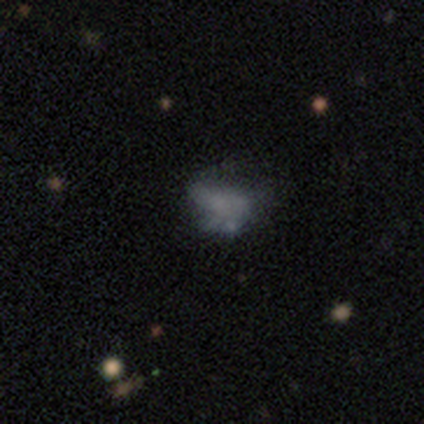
featured or disk 50%, smooth 33%, star or artifact 17%. Down the decision tree: edge-on disk — no (100%); bar — no (100%); spiral arms — no (100%); bulge size — none (100%); merging — minor disturbance (60%).